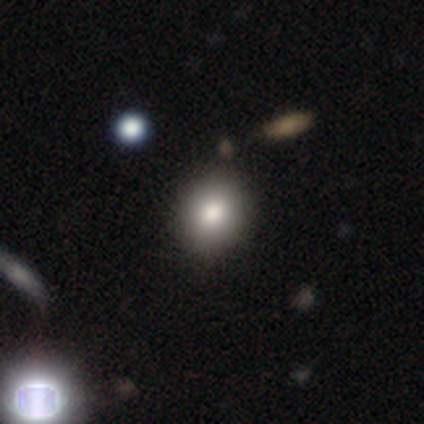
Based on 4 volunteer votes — Smooth or featured: smooth — 100%
How rounded: round — 100%
Merging: none — 100%